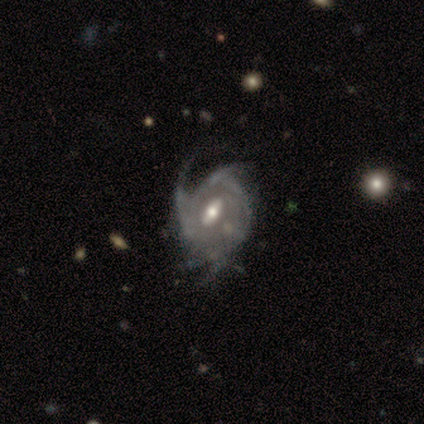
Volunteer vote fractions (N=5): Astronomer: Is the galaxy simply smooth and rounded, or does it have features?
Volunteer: featured or disk — 100%.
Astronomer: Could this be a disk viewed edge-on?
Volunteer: no — 100%.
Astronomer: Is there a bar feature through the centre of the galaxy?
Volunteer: weak — 60% (runner-up: no, 40%).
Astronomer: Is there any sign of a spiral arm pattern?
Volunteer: yes — 80%.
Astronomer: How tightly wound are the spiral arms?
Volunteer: tight — 50%, tied with medium at 50%.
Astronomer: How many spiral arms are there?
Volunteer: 4 — 50%, tied with can't tell at 50%.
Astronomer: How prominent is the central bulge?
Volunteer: moderate — 80%.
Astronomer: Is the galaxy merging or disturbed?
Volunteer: none — 40%, tied with major disturbance at 40%.